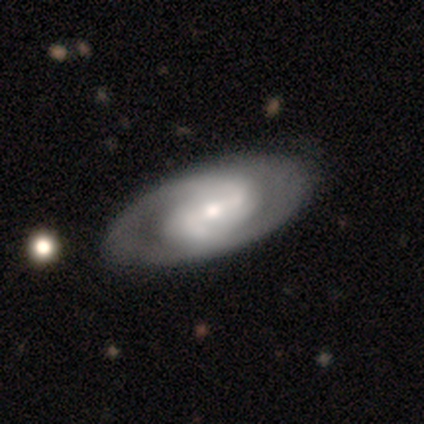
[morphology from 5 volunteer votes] Smooth or featured? 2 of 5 (40%, tied with featured or disk) said smooth. How rounded? 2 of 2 (100%) said in between. Merging? 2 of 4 (50%, tied with minor disturbance) said none.